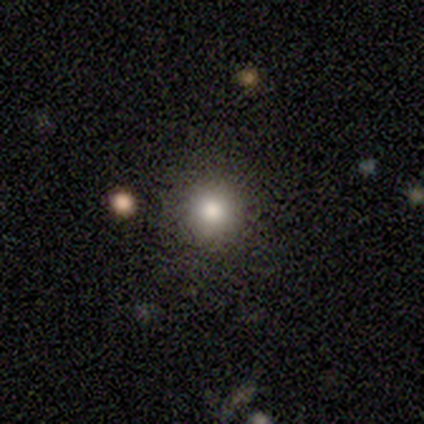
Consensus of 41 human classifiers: Smooth or featured? 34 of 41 (83%) said smooth. How rounded? 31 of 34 (91%) said round. Merging? 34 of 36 (94%) said none.